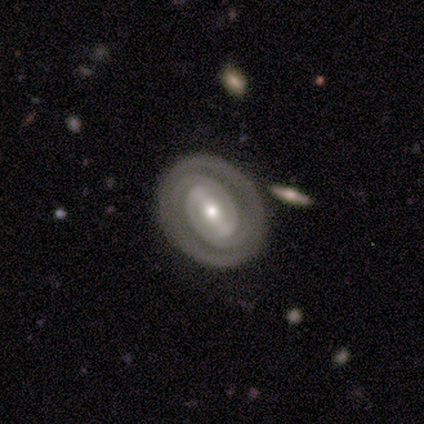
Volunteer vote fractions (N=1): Smooth or featured? 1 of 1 (100%) said featured or disk. Edge-on disk? 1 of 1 (100%) said no. Bar? 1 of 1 (100%) said strong. Spiral arms? 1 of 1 (100%) said yes. Spiral winding? 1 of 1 (100%) said tight. Spiral arm count? 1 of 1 (100%) said 2. Bulge size? 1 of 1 (100%) said small. Merging? 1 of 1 (100%) said none.